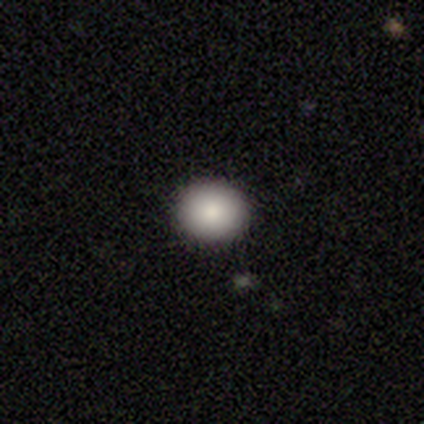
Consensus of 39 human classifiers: smooth 79%, featured or disk 15%, star or artifact 5%. Down the decision tree: how rounded — round (81%); merging — none (97%).